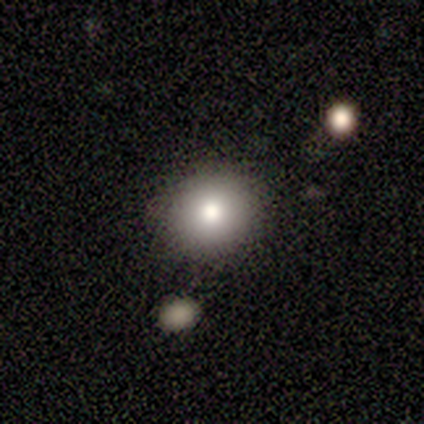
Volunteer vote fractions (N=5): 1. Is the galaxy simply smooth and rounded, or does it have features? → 60% smooth, 20% featured or disk, 20% star or artifact.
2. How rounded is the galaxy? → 100% round, 0% in between, 0% cigar-shaped.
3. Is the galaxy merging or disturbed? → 75% none, 25% minor disturbance, 0% major disturbance, 0% merger.